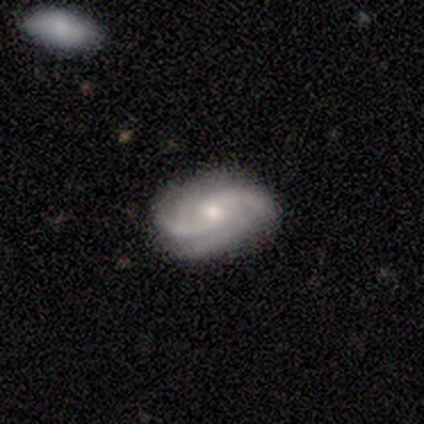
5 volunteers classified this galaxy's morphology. Overall: featured or disk (100%). Edge-on disk: no (100%). Bar: weak (60%; no 40%). Spiral arms: yes (100%). Spiral arm count: 2 (60%; 3 40%). Spiral winding: tight (80%). Bulge size: moderate (80%). Merging: none (80%).